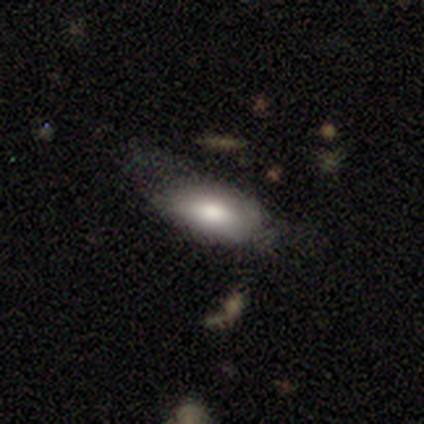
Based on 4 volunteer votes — Smooth or featured? 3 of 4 (75%) said smooth. How rounded? 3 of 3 (100%) said in between. Merging? 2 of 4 (50%, tied with minor disturbance) said none.